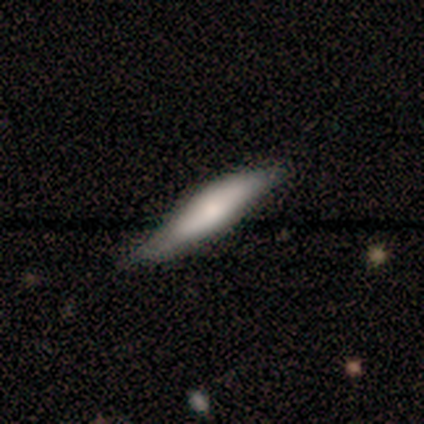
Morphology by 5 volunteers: smooth-or-featured: smooth: 60% | featured or disk: 40% | star or artifact: 0%
  how-rounded: cigar-shaped: 100% | round: 0% | in between: 0%
  merging: minor disturbance: 60% | none: 40% | major disturbance: 0% | merger: 0%